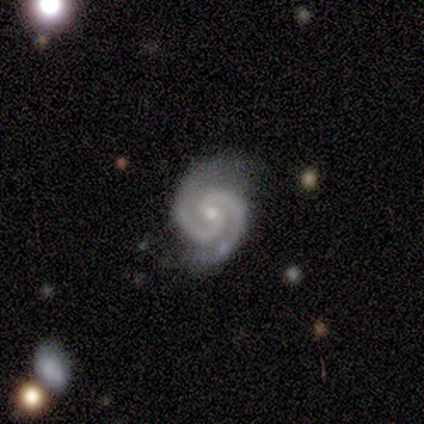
This is clearly a featured or disk galaxy (80%). It is clearly not viewed edge-on (100%). Bar: possibly no (50%). Spiral arm pattern: clearly yes (100%). Spiral arm count: clearly 2 (100%). Spiral winding: possibly tight (50%, tied with medium). Central bulge: likely small (75%). Merging: clearly none (80%).